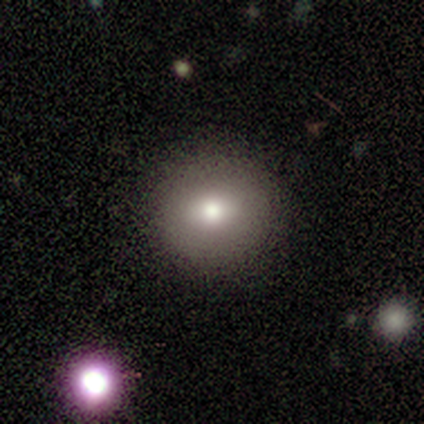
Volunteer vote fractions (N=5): star or artifact 60%, smooth 40%, featured or disk 0%.